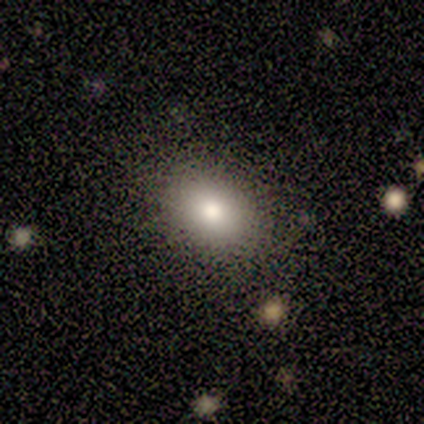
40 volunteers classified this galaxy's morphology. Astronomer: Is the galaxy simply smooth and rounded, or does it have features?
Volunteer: smooth — 90%.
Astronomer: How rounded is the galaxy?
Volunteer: in between — 67%.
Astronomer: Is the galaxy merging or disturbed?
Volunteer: none — 76%.